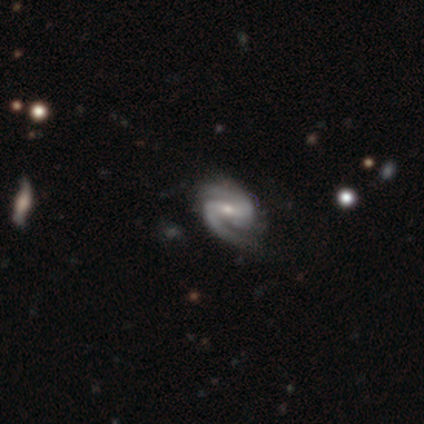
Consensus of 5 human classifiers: A featured or disk galaxy (100%) with a strong bar (60%), 2 (60%) medium (60%) spiral arms (100%) and a moderate central bulge (60%).

Vote fractions:
- Smooth or featured? featured or disk: 100% / smooth: 0% / star or artifact: 0%
- Edge-on disk? no: 100% / yes: 0%
- Bar? strong: 60% / weak: 40% / no: 0%
- Spiral arms? yes: 100% / no: 0%
- Spiral winding? medium: 60% / tight: 20% / loose: 20%
- Spiral arm count? 2: 60% / 1: 20% / 3: 20% / 4: 0% / more than 4: 0% / can't tell: 0%
- Bulge size? moderate: 60% / small: 40% / dominant: 0% / large: 0% / none: 0%
- Merging? none: 60% / minor disturbance: 20% / major disturbance: 20% / merger: 0%